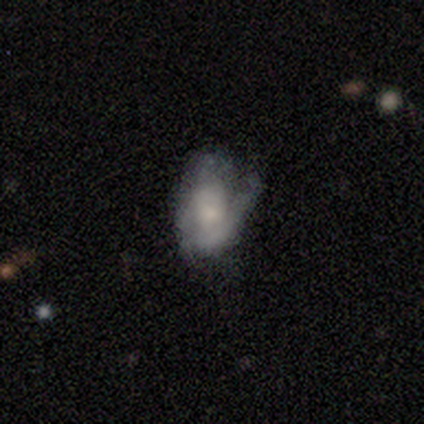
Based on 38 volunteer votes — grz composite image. It shows a featured or disk galaxy (63%) with no bar (71%), 2 (71%) tight (47%) spiral arms (71%) and a moderate central bulge (42%). Merging: none (31%).